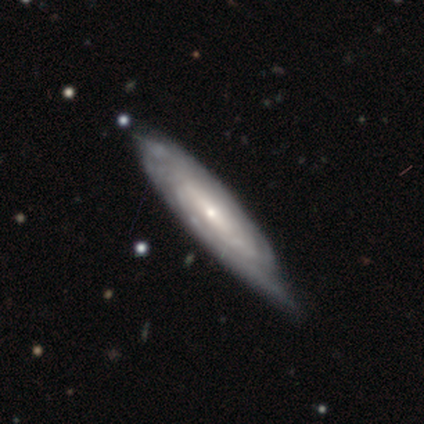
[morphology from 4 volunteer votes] This is likely a featured or disk galaxy (75%). It is likely viewed edge-on (67%). Edge-on bulge: possibly none (50%, tied with rounded). Merging: likely none (75%).